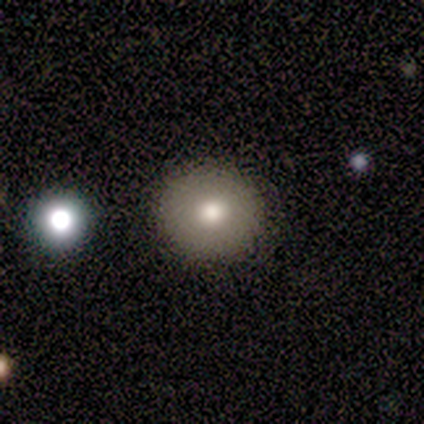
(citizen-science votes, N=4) Volunteers were most divided on "merging": none: 67%, minor disturbance: 33%, major disturbance: 0%, merger: 0%. More confident: how rounded — round (100%); smooth or featured — smooth (75%).